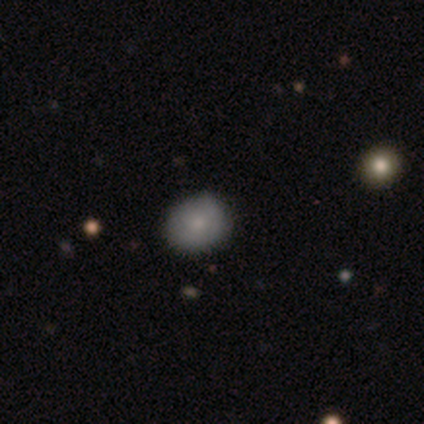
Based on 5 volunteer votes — Smooth or featured?
  - smooth: 100% *
  - featured or disk: 0%
  - star or artifact: 0%
How rounded?
  - in between: 60% *
  - round: 40%
  - cigar-shaped: 0%
Merging?
  - none: 100% *
  - minor disturbance: 0%
  - major disturbance: 0%
  - merger: 0%